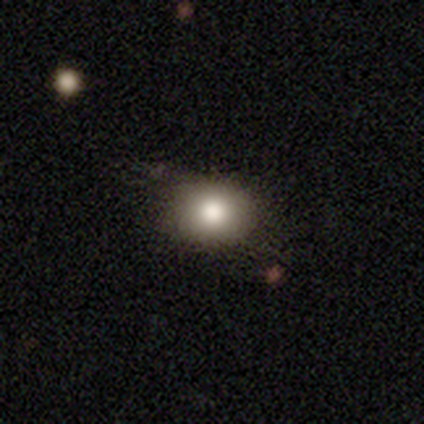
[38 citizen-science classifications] Smooth or featured? 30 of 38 (79%) said smooth. How rounded? 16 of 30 (53%) said round. Merging? 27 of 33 (82%) said none.